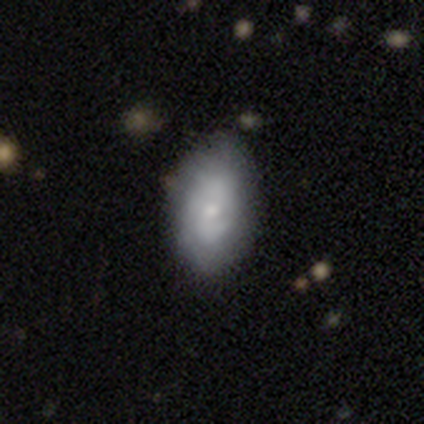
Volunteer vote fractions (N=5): Volunteers were most divided on "smooth or featured": smooth: 80%, featured or disk: 20%, star or artifact: 0%. More confident: how rounded — in between (100%); merging — none (80%).